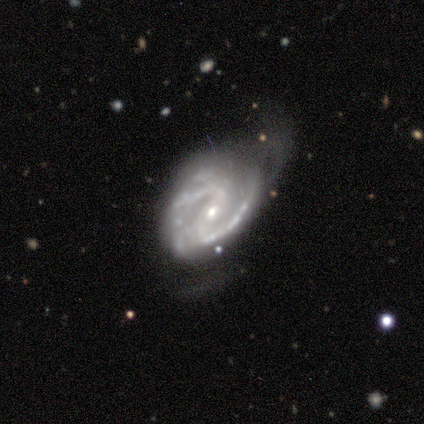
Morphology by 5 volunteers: This appears to be a featured or disk galaxy (100%) with a strong bar (40%, tied with weak), 2 (80%) medium (60%) spiral arms (100%) and a small central bulge (60%). Merging: minor disturbance (60%).